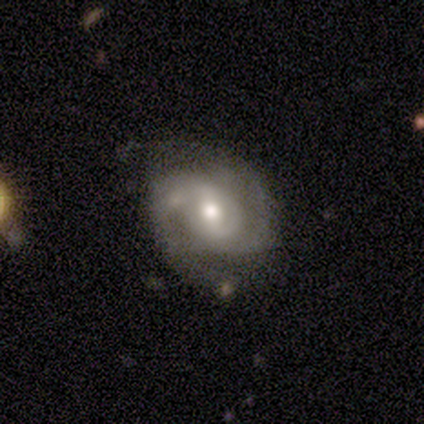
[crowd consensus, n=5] smooth_or_featured: featured or disk (p=1.00)
disk_edge_on: no (p=1.00)
bar: weak (p=0.80) [alt: no p=0.20]
has_spiral_arms: yes (p=1.00)
spiral_winding: tight (p=0.60) [alt: medium p=0.40]
spiral_arm_count: 2 (p=0.60) [alt: can't tell p=0.40]
bulge_size: small (p=0.60) [alt: moderate p=0.40]
merging: none (p=0.60) [alt: minor disturbance p=0.20]